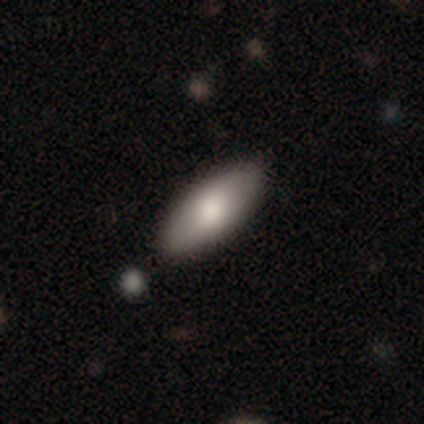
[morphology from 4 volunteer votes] smooth 50% (tied), featured or disk 50% (tied), star or artifact 0%. Down the decision tree: how rounded — in between (100%); merging — none (50%, tied with minor disturbance).